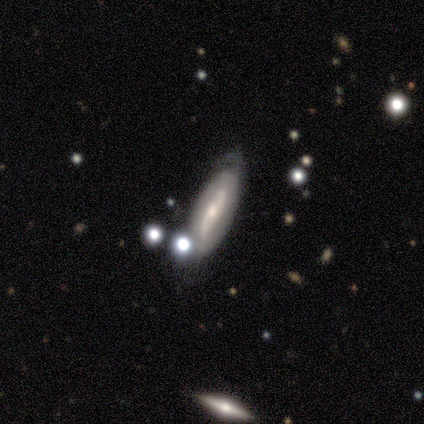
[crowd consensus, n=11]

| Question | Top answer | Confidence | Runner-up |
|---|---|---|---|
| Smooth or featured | featured or disk | 55% | smooth (45%) |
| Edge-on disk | no | 67% | yes (33%) |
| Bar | weak | 50% | strong (25%) |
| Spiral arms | yes | 100% | — |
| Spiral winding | medium | 75% | tight (25%) |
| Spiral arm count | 2 | 75% | can't tell (25%) |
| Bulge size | small | 100% | — |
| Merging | none | 55% | minor disturbance (45%) |